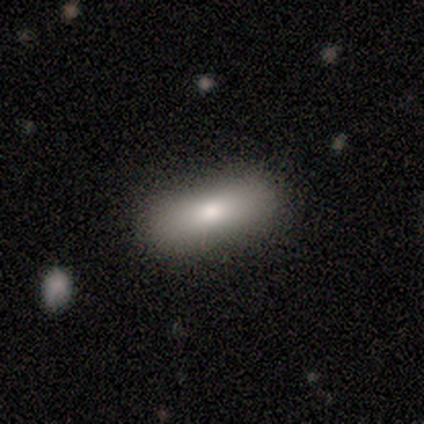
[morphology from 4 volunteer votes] A smooth galaxy with no disk features (100%) that is in between round and cigar-shaped (75%). Merging: none (100%).